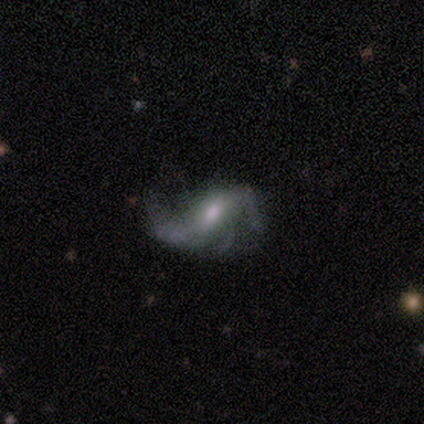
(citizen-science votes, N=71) Smooth or featured: featured or disk — 87% (star or artifact — 10%)
Edge-on disk: no — 97% (yes — 3%)
Bar: weak — 50% (no — 33%)
Spiral arms: yes — 90% (no — 10%)
Spiral winding: loose — 67% (medium — 26%)
Spiral arm count: 2 — 65% (3 — 22%)
Bulge size: moderate — 53% (small — 25%)
Merging: major disturbance — 42% (none — 31%)